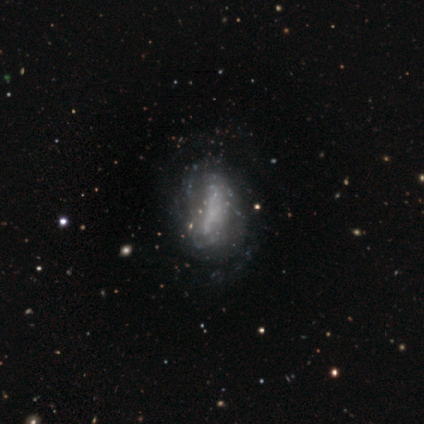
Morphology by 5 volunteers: smooth-or-featured: featured or disk: 60% | smooth: 20% | star or artifact: 20%
  disk-edge-on: no: 100% | yes: 0%
    bar: weak: 67% | no: 33% | strong: 0%
    has-spiral-arms: yes: 67% | no: 33%
      spiral-winding: tight: 50% (tied) | medium: 50% (tied) | loose: 0%
      spiral-arm-count: 4: 50% (tied) | can't tell: 50% (tied) | 1: 0% | 2: 0% | 3: 0% | more than 4: 0%
    bulge-size: none: 67% | dominant: 33% | large: 0% | moderate: 0% | small: 0%
  merging: minor disturbance: 50% | none: 25% | merger: 25% | major disturbance: 0%